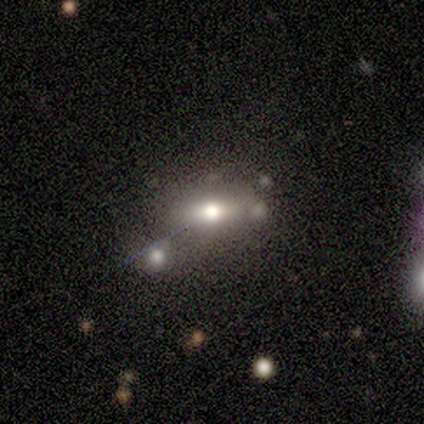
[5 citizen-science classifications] This appears to be a smooth galaxy with no disk features (60%) that is in between round and cigar-shaped (67%). Merging: none (50%).